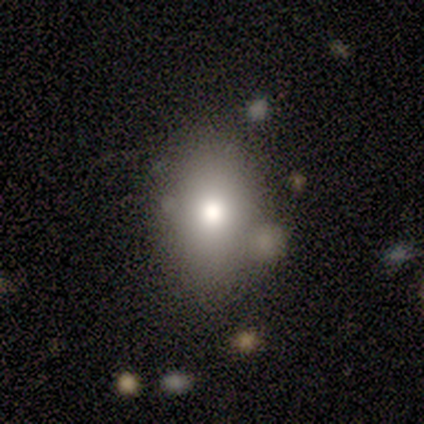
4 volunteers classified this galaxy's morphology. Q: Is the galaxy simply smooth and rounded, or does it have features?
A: smooth — 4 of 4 (100%).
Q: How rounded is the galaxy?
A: in between — 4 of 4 (100%).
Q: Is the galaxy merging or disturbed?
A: none — 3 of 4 (75%).